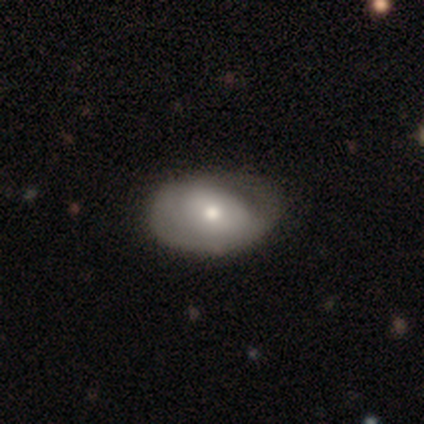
Smooth or featured? 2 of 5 (40%, tied with featured or disk) said smooth. How rounded? 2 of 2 (100%) said in between. Merging? 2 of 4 (50%) said none.